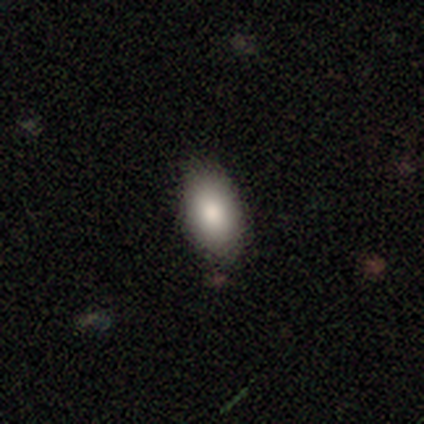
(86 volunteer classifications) A smooth galaxy with no disk features (84%) that is in between round and cigar-shaped (92%).

Vote fractions:
- Smooth or featured? smooth: 84% / featured or disk: 10% / star or artifact: 6%
- How rounded? in between: 92% / cigar-shaped: 6% / round: 3%
- Merging? none: 83% / minor disturbance: 15% / major disturbance: 2% / merger: 0%